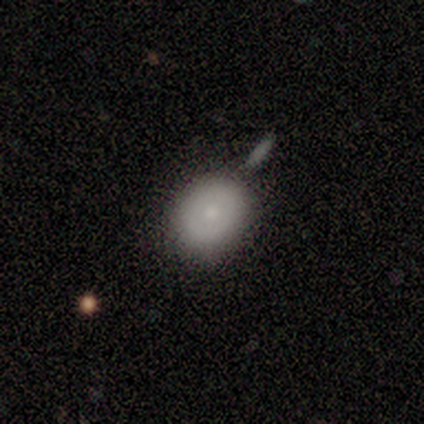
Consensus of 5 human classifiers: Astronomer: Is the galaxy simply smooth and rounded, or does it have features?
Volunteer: smooth — 80%.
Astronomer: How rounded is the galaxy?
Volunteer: round — 50%, tied with in between at 50%.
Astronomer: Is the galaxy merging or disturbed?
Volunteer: none — 60%.